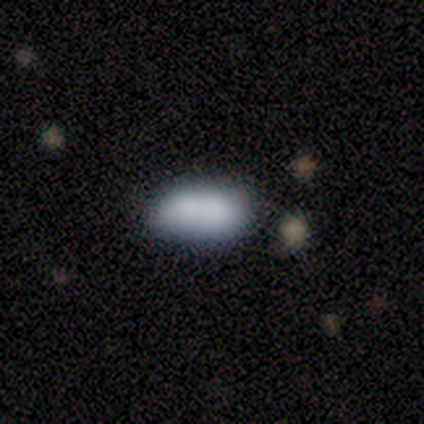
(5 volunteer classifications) Smooth or featured?
  - smooth: 80% *
  - featured or disk: 20%
  - star or artifact: 0%
How rounded?
  - in between: 100% *
  - round: 0%
  - cigar-shaped: 0%
Merging?
  - none: 60% *
  - minor disturbance: 20%
  - merger: 20%
  - major disturbance: 0%